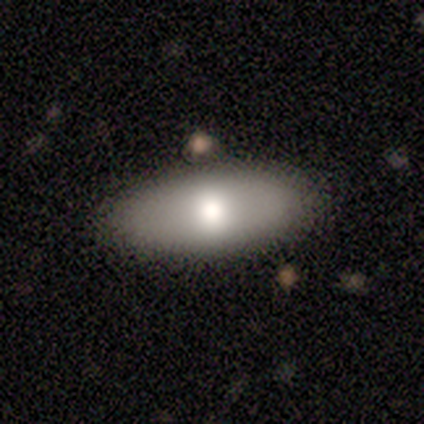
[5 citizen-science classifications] This is clearly a smooth galaxy (80%). How rounded: clearly in between (100%). Merging: clearly none (100%).